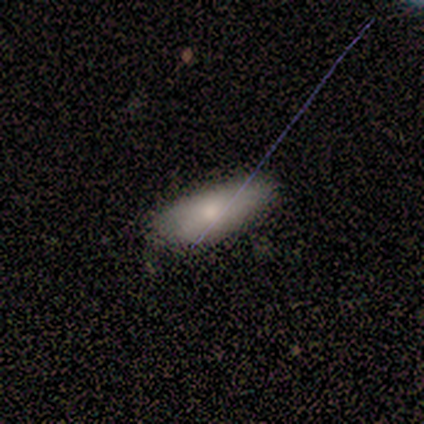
Smooth or featured: smooth — 43% (tied with star or artifact — 43%)
How rounded: in between — 67% (cigar-shaped — 33%)
Merging: none — 100%